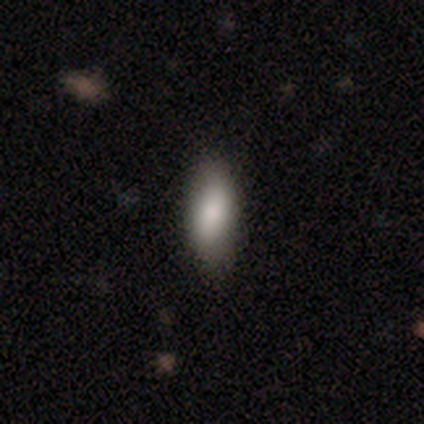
Q: Smooth or featured?
A: smooth (85%); runner-up: featured or disk (12%)
Q: How rounded?
A: in between (85%); runner-up: cigar-shaped (15%)
Q: Merging?
A: none (85%); runner-up: minor disturbance (13%)